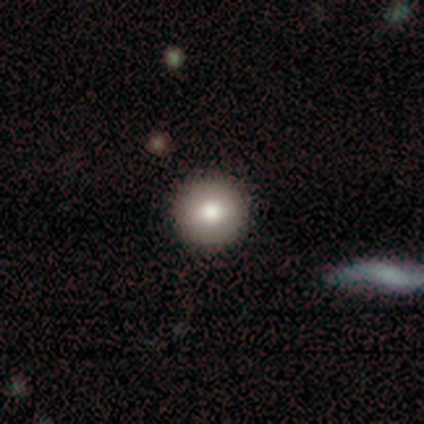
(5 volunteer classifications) smooth_or_featured: smooth (p=0.60) [alt: star or artifact p=0.40]
how_rounded: round (p=1.00)
merging: none (p=1.00)